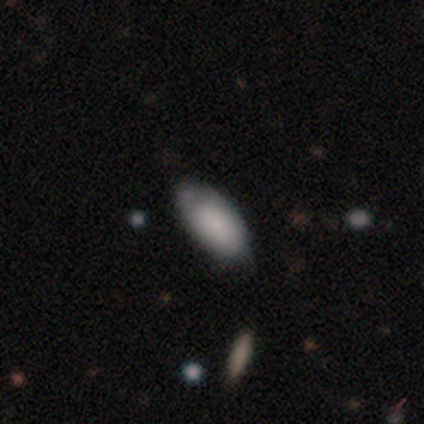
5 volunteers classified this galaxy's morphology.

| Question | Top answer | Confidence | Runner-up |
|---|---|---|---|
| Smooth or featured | smooth | 80% | featured or disk (20%) |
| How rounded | in between | 100% | — |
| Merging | none | 60% | minor disturbance (40%) |